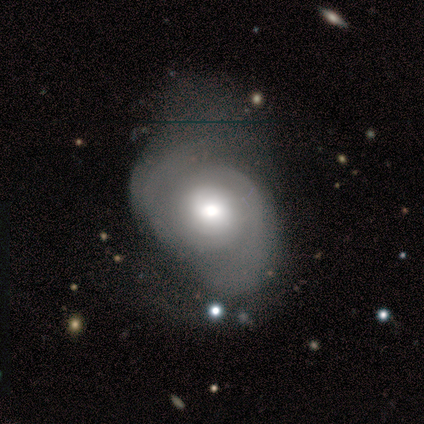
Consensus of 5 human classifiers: Morphology: type=featured or disk (60%); edge-on=no (100%); bar=no (100%); spiral arms=no (67%); bulge=large (67%); merging=minor disturbance (40%, tied with major disturbance).